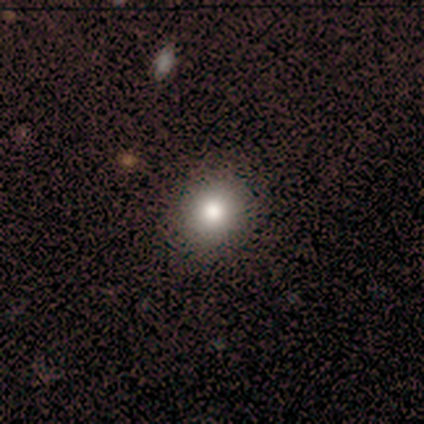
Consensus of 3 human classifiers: Q: Smooth or featured?
A: star or artifact (67%); runner-up: smooth (33%)